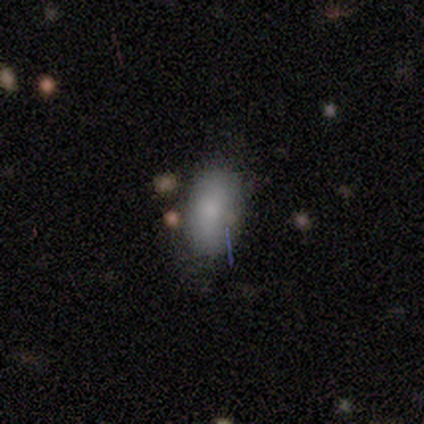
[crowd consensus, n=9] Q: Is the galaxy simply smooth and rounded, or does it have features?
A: smooth — 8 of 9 (89%).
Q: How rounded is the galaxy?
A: in between — 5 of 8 (62%).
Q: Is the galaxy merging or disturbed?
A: none — 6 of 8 (75%).